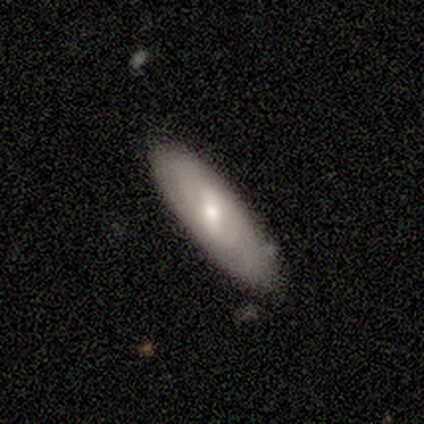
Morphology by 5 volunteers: smooth_or_featured: featured or disk (p=0.60) [alt: smooth p=0.40]
disk_edge_on: no (p=0.67) [alt: yes p=0.33]
bar: strong (p=0.50) [tied with: weak p=0.50]
has_spiral_arms: yes (p=0.50) [tied with: no p=0.50]
spiral_winding: loose (p=1.00)
spiral_arm_count: 2 (p=1.00)
bulge_size: moderate (p=0.50) [tied with: small p=0.50]
merging: none (p=1.00)